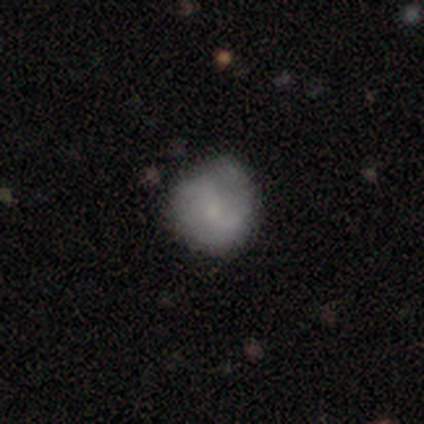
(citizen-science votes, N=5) This appears to be a featured or disk galaxy (80%) with no bar (75%), 2 (75%) tight (50%) spiral arms (100%) and a moderate central bulge (50%, tied with small). Merging: minor disturbance (60%).